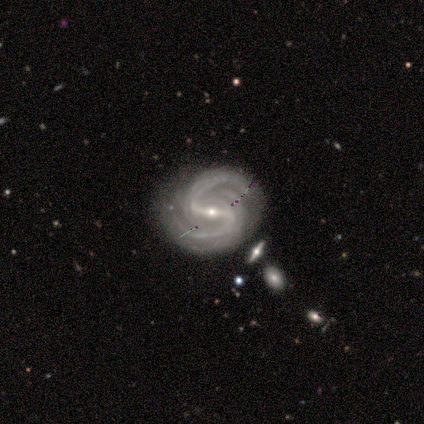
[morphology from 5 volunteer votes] Volunteers were most divided on "spiral winding": medium: 60%, tight: 20%, loose: 20%. More confident: smooth or featured — featured or disk (100%); edge-on disk — no (100%); bar — strong (100%); spiral arms — yes (100%); spiral arm count — 2 (100%); bulge size — small (80%); merging — none (80%).